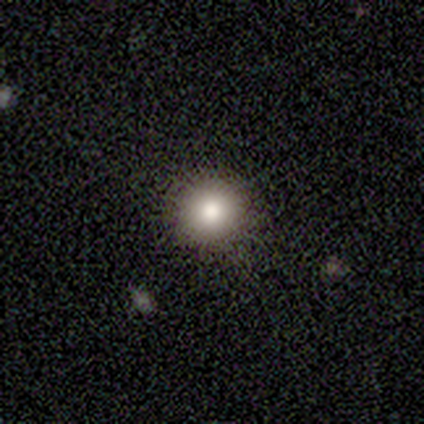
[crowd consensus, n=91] A smooth galaxy with no disk features (71%) that is round (94%). Merging: none (88%).